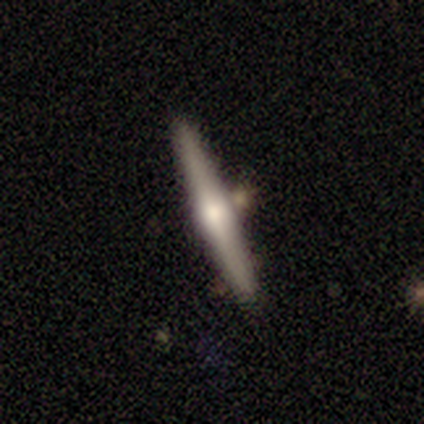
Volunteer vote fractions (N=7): Overall: featured or disk (71%). Edge-on disk: yes (100%). Edge-on bulge: rounded (60%; boxy 40%). Merging: none (71%).